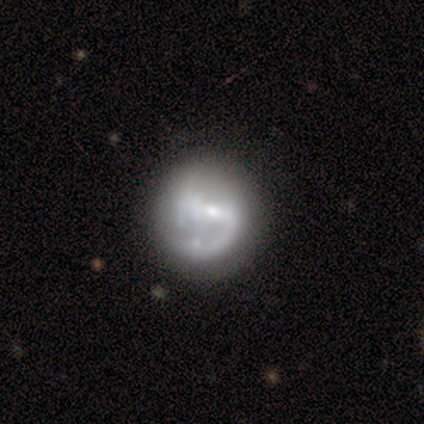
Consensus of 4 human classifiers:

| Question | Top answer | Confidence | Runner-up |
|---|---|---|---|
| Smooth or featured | featured or disk | 100% | — |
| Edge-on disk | no | 100% | — |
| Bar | strong | 50% | weak (25%) |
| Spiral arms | no | 75% | yes (25%) |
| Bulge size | moderate | 50% | tied: small (50%) |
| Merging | none | 50% | minor disturbance (25%) |